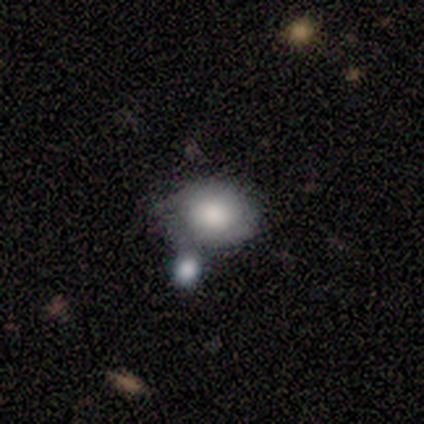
smooth 100%, featured or disk 0%, star or artifact 0%. Down the decision tree: how rounded — in between (75%); merging — none (100%).